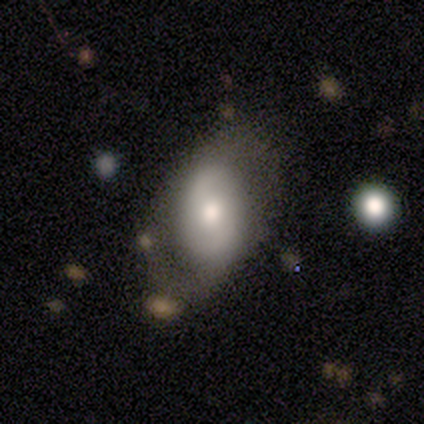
Smooth or featured? 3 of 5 (60%) said featured or disk. Edge-on disk? 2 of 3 (67%) said no. Bar? 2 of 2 (100%) said no. Spiral arms? 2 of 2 (100%) said yes. Spiral winding? 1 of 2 (50%, tied with loose) said tight. Spiral arm count? 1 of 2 (50%, tied with 2) said 1. Bulge size? 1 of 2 (50%, tied with small) said large. Merging? 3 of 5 (60%) said minor disturbance.